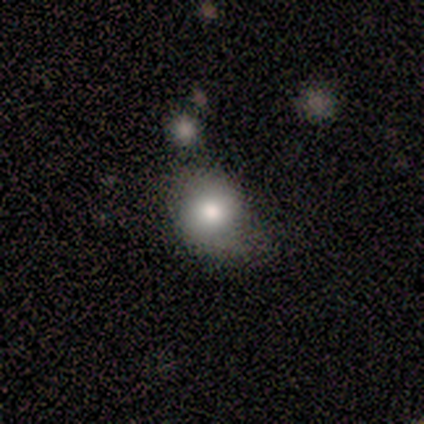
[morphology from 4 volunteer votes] smooth-or-featured: featured or disk: 50% | smooth: 25% | star or artifact: 25%
  disk-edge-on: no: 100% | yes: 0%
    bar: weak: 50% (tied) | no: 50% (tied) | strong: 0%
    has-spiral-arms: yes: 100% | no: 0%
      spiral-winding: tight: 50% (tied) | medium: 50% (tied) | loose: 0%
      spiral-arm-count: 2: 100% | 1: 0% | 3: 0% | 4: 0% | more than 4: 0% | can't tell: 0%
    bulge-size: large: 100% | dominant: 0% | moderate: 0% | small: 0% | none: 0%
  merging: none: 100% | minor disturbance: 0% | major disturbance: 0% | merger: 0%